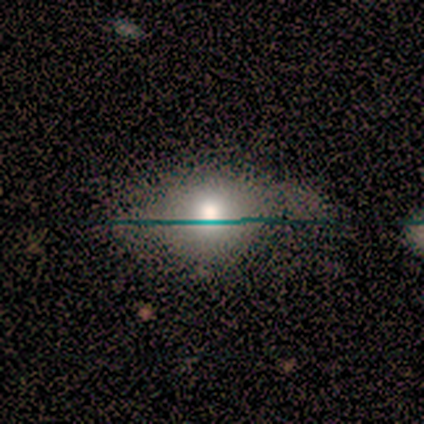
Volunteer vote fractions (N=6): Q: Smooth or featured?
A: smooth (83%); runner-up: featured or disk (17%)
Q: How rounded?
A: in between (60%); runner-up: round (40%)
Q: Merging?
A: none (50%); tied with: minor disturbance (50%)